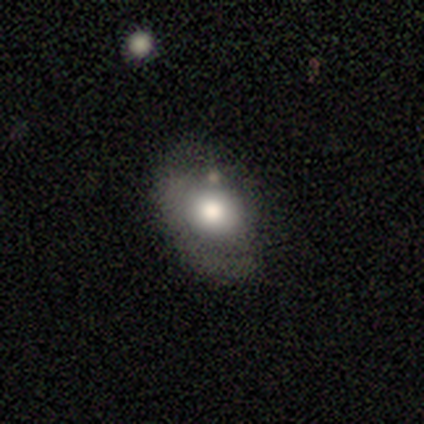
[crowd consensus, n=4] This appears to be a smooth galaxy with no disk features (100%) that is in between round and cigar-shaped (75%). Merging: none (100%).